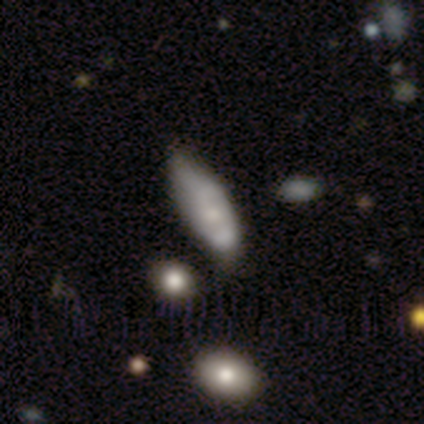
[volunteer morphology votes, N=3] Q: Smooth or featured?
A: smooth (100%)
Q: How rounded?
A: in between (67%); runner-up: cigar-shaped (33%)
Q: Merging?
A: none (100%)